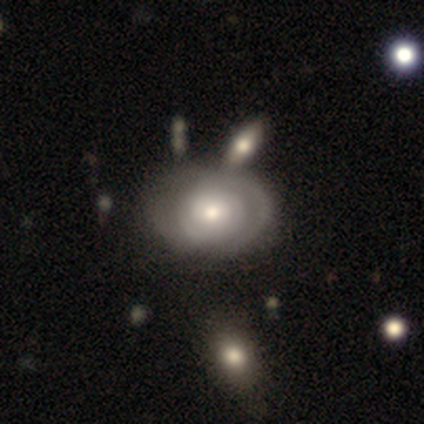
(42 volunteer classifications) This is clearly a featured or disk galaxy (81%). It is clearly not viewed edge-on (100%). Bar: clearly no (88%). Spiral arm pattern: likely yes (76%). Spiral arm count: possibly can't tell (50%). Spiral winding: likely tight (69%). Central bulge: likely moderate (68%). Merging: marginally none (44%).